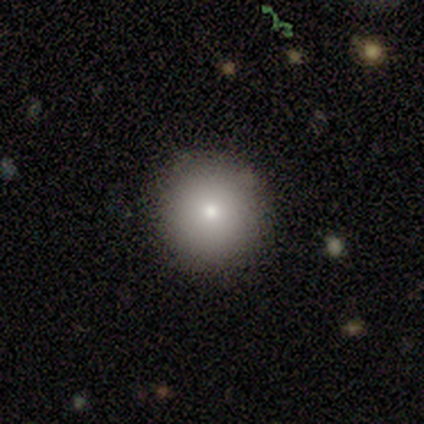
Smooth or featured? 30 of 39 (77%) said smooth. How rounded? 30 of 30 (100%) said round. Merging? 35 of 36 (97%) said none.